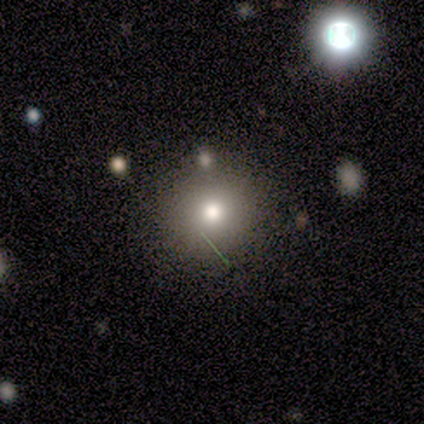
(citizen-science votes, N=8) A smooth galaxy with no disk features (62%) that is round (80%). Merging: none (83%).